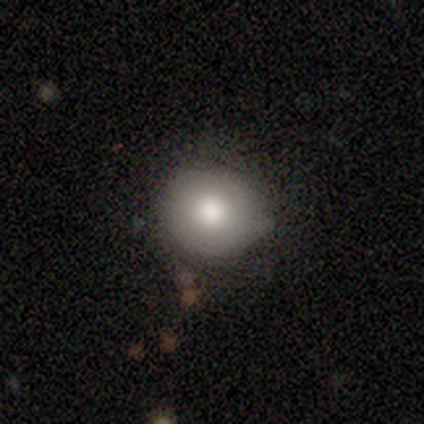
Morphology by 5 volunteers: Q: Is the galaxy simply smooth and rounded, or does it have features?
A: smooth — 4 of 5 (80%).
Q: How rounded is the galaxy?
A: round — 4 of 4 (100%).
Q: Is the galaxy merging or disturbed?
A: none — 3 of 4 (75%).